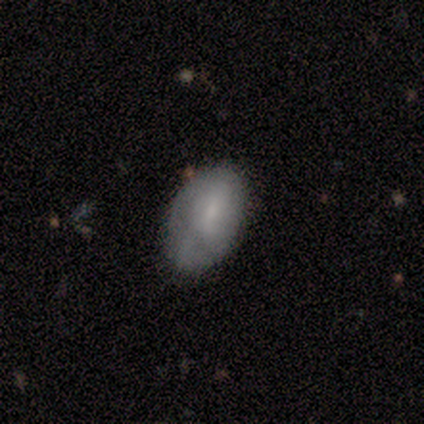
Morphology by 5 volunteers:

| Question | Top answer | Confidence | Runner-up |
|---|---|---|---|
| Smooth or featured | smooth | 80% | featured or disk (20%) |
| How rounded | in between | 100% | — |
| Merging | none | 80% | major disturbance (20%) |